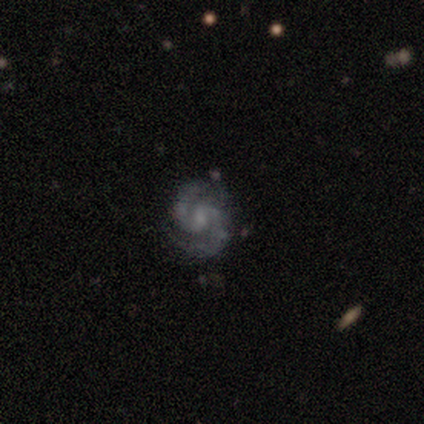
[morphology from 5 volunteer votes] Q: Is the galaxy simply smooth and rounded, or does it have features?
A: featured or disk — 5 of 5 (100%).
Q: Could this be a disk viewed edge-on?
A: no — 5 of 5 (100%).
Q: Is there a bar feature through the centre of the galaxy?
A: no — 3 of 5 (60%).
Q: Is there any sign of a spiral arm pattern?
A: yes — 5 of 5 (100%).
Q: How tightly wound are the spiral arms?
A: medium — 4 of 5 (80%).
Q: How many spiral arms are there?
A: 2 — 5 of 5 (100%).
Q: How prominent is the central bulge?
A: moderate — 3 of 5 (60%).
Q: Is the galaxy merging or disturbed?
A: none — 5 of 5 (100%).